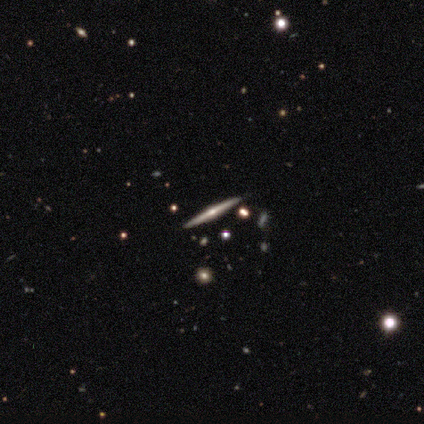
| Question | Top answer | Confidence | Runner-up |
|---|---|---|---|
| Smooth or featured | featured or disk | 83% | smooth (10%) |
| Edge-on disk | yes | 100% | — |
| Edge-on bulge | rounded | 82% | none (12%) |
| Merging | none | 95% | minor disturbance (5%) |